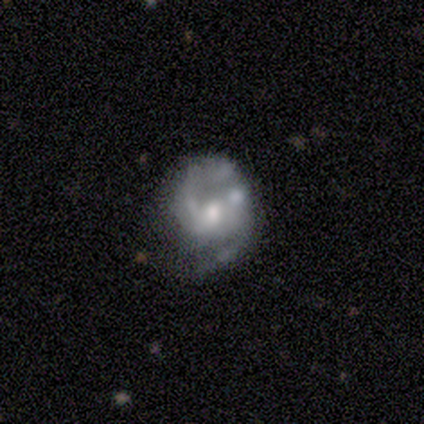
Smooth or featured: featured or disk — 60% (star or artifact — 40%)
Edge-on disk: no — 100%
Bar: weak — 67% (strong — 33%)
Spiral arms: yes — 67% (no — 33%)
Spiral winding: medium — 100%
Spiral arm count: 1 — 50% (tied with 2 — 50%)
Bulge size: small — 67% (moderate — 33%)
Merging: none — 100%